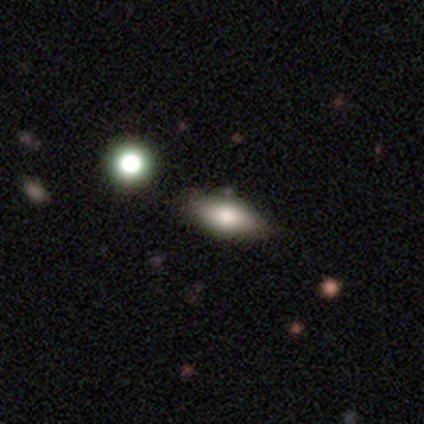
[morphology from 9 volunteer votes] Volunteers were most divided on "merging": none: 75%, minor disturbance: 25%, major disturbance: 0%, merger: 0%. More confident: how rounded — in between (86%); smooth or featured — smooth (78%).